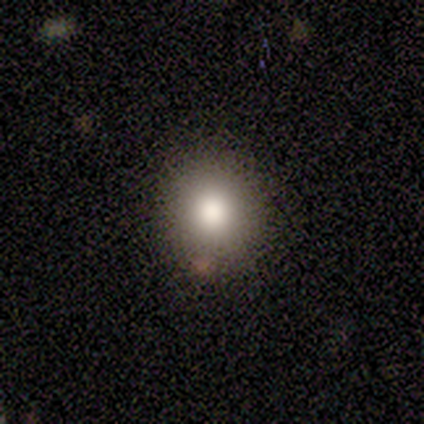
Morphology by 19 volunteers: type=smooth (89%); roundness=round (88%); merging=none (89%).